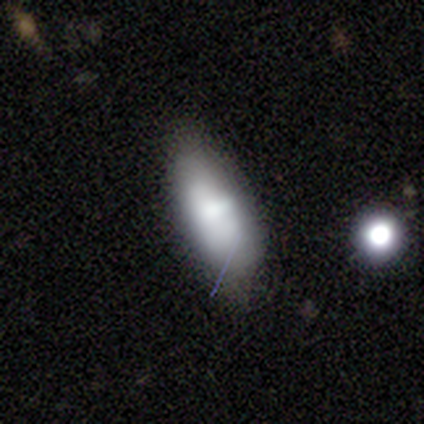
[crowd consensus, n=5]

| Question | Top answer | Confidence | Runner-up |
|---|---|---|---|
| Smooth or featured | smooth | 80% | featured or disk (20%) |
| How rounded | in between | 100% | — |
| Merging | none | 60% | minor disturbance (40%) |